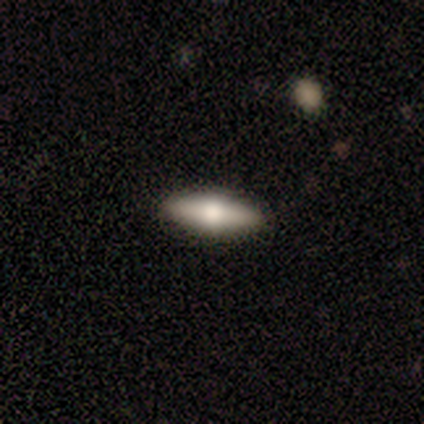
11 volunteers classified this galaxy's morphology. This is likely a smooth galaxy (64%). How rounded: possibly cigar-shaped (57%). Merging: clearly none (100%).